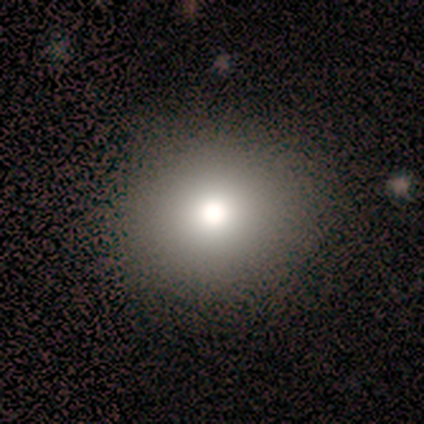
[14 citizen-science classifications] Morphology: type=smooth (71%); roundness=round (90%); merging=none (100%).